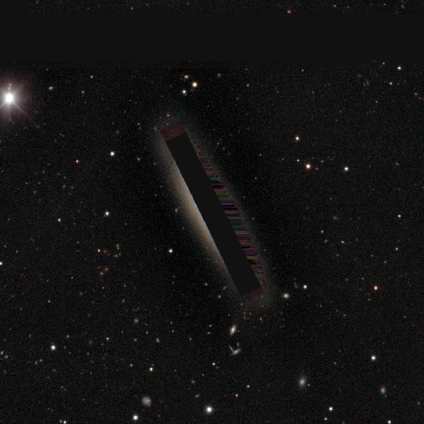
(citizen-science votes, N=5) A star or artifact, not a galaxy (100%).

Vote fractions:
- Smooth or featured? star or artifact: 100% / smooth: 0% / featured or disk: 0%